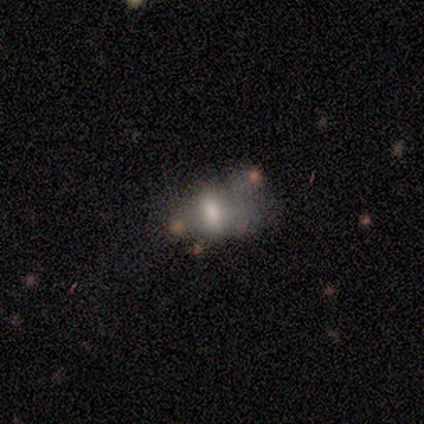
Smooth or featured? smooth (60%)
How rounded? in between (67%)
Merging? none (25%, tied with minor disturbance, major disturbance and merger)